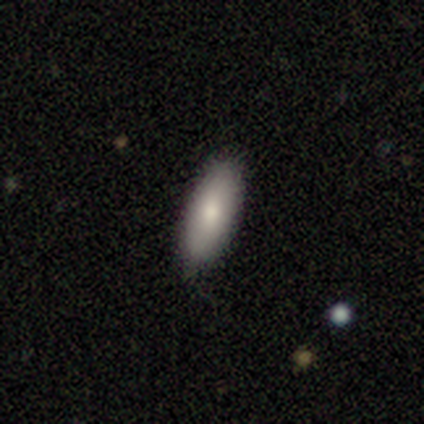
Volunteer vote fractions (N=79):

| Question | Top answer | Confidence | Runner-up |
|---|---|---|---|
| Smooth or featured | smooth | 82% | featured or disk (11%) |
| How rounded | in between | 72% | cigar-shaped (28%) |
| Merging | none | 82% | minor disturbance (14%) |